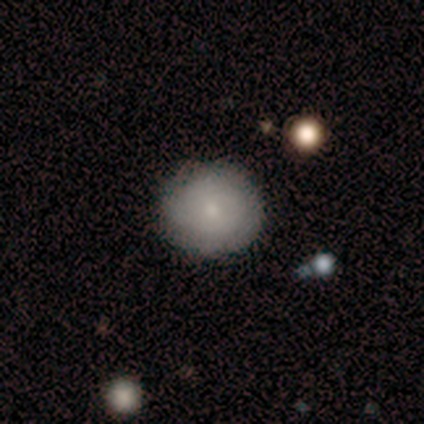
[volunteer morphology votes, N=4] smooth_or_featured: smooth (p=1.00)
how_rounded: round (p=0.75) [alt: in between p=0.25]
merging: none (p=1.00)